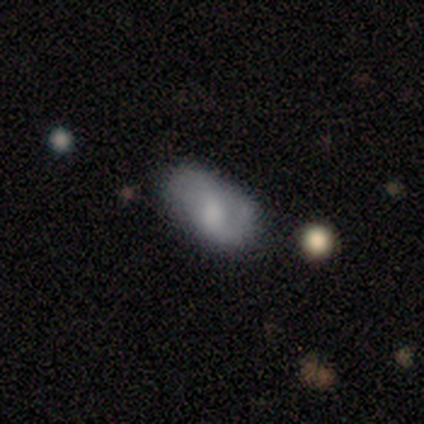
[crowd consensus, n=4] A featured or disk galaxy (50%) with a weak bar (50%, tied with no), 1 (50%, tied with 2) medium (50%, tied with loose) spiral arms (100%) and a large central bulge (50%, tied with none).

Vote fractions:
- Smooth or featured? featured or disk: 50% / smooth: 25% / star or artifact: 25%
- Edge-on disk? no: 100% / yes: 0%
- Bar? weak: 50% (tied) / no: 50% (tied) / strong: 0%
- Spiral arms? yes: 100% / no: 0%
- Spiral winding? medium: 50% (tied) / loose: 50% (tied) / tight: 0%
- Spiral arm count? 1: 50% (tied) / 2: 50% (tied) / 3: 0% / 4: 0% / more than 4: 0% / can't tell: 0%
- Bulge size? large: 50% (tied) / none: 50% (tied) / dominant: 0% / moderate: 0% / small: 0%
- Merging? none: 100% / minor disturbance: 0% / major disturbance: 0% / merger: 0%